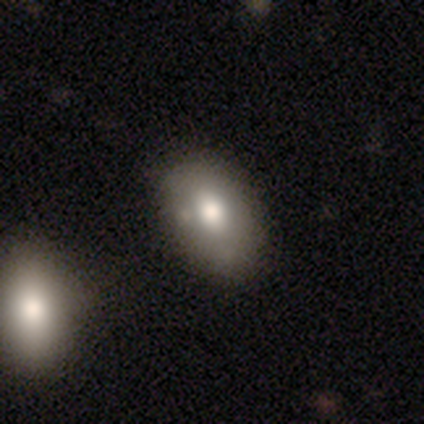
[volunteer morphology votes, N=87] Volunteers were most divided on "merging": none: 68%, minor disturbance: 23%, merger: 5%, major disturbance: 4%. More confident: how rounded — in between (84%); smooth or featured — smooth (74%).